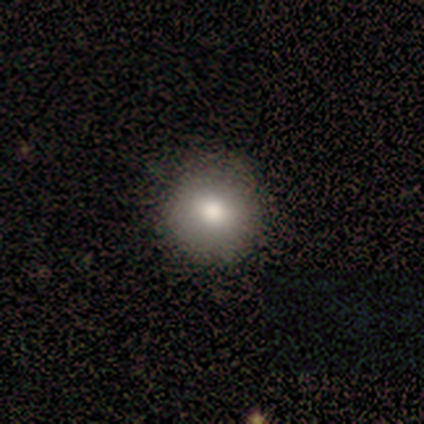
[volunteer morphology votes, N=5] Q: Smooth or featured?
A: smooth (80%); runner-up: featured or disk (20%)
Q: How rounded?
A: round (100%)
Q: Merging?
A: none (100%)